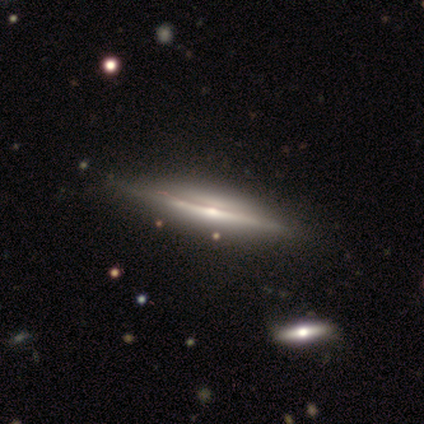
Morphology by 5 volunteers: Smooth or featured? featured or disk (80%)
Edge-on disk? yes (100%)
Edge-on bulge? rounded (100%)
Merging? none (75%)